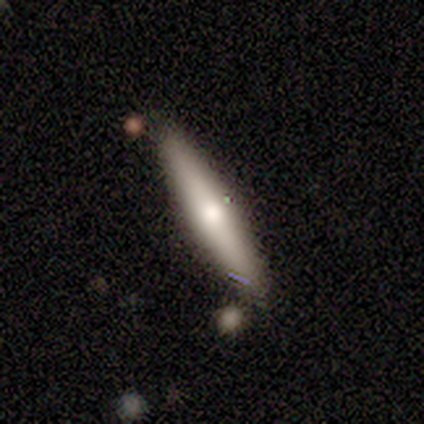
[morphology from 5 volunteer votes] type=smooth (60%); roundness=cigar-shaped (100%); merging=none (100%).